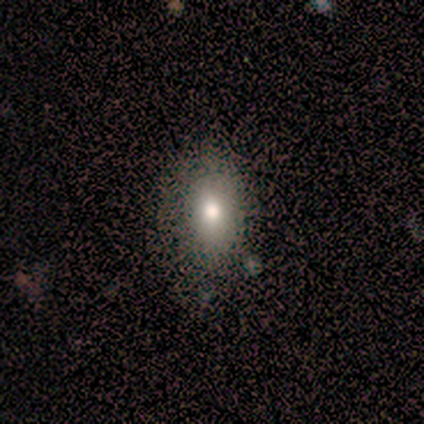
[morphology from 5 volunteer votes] Smooth or featured?
  - smooth: 60% *
  - featured or disk: 40%
  - star or artifact: 0%
How rounded?
  - in between: 100% *
  - round: 0%
  - cigar-shaped: 0%
Merging?
  - none: 100% *
  - minor disturbance: 0%
  - major disturbance: 0%
  - merger: 0%